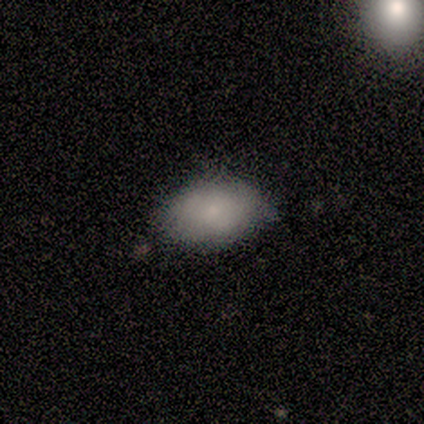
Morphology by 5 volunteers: Smooth or featured? 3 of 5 (60%) said smooth. How rounded? 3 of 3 (100%) said in between. Merging? 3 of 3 (100%) said minor disturbance.